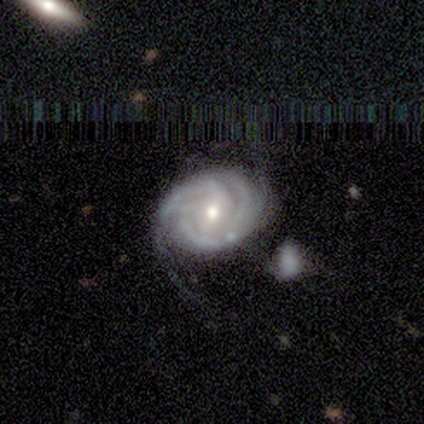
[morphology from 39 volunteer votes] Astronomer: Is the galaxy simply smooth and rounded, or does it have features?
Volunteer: featured or disk — 92%.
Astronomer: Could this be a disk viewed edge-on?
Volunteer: no — 100%.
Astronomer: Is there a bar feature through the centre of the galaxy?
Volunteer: no — 53% (runner-up: weak, 36%).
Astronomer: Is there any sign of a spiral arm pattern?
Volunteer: yes — 97%.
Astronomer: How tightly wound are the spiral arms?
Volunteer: tight — 83%.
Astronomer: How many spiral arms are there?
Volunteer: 3 — 43% (runner-up: can't tell, 29%).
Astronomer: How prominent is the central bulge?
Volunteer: moderate — 69%.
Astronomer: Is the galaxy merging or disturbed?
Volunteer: none — 49%.